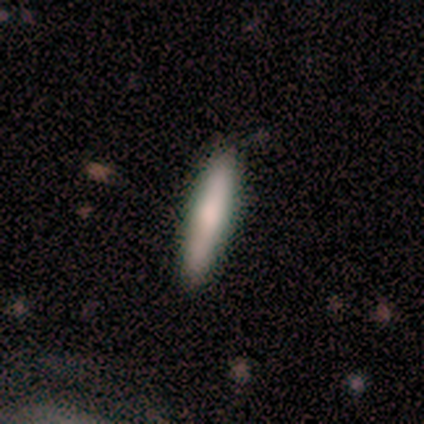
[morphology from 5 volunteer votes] A smooth galaxy with no disk features (80%) that is cigar-shaped (100%). Merging: none (100%).